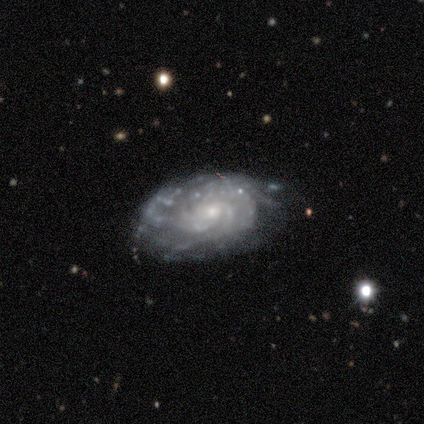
Smooth or featured? featured or disk (60%)
Edge-on disk? no (100%)
Bar? no (67%)
Spiral arms? yes (100%)
Spiral winding? tight (100%)
Spiral arm count? more than 4 (67%)
Bulge size? small (67%)
Merging? none (100%)